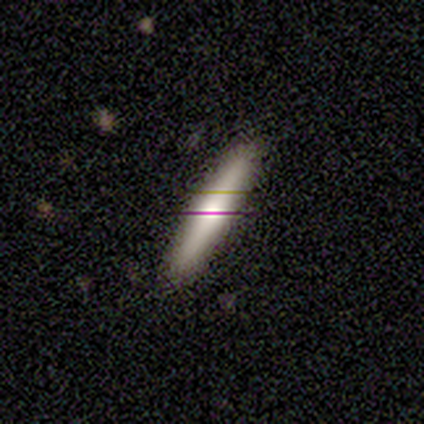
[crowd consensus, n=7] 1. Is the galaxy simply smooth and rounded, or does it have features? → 71% smooth, 14% featured or disk, 14% star or artifact.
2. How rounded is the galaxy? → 100% cigar-shaped, 0% round, 0% in between.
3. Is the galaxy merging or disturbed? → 83% none, 17% major disturbance, 0% minor disturbance, 0% merger.